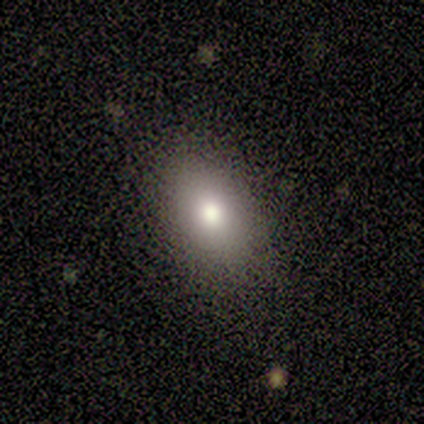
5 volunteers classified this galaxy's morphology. A smooth galaxy with no disk features (80%) that is in between round and cigar-shaped (100%). Merging: none (100%).